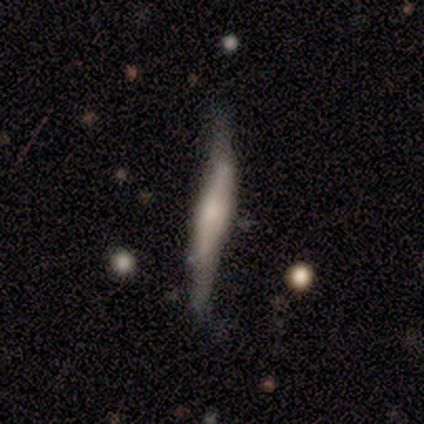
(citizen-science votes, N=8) Volunteers were most divided on "merging" (2-way tie): none: 50%, minor disturbance: 50%, major disturbance: 0%, merger: 0%. More confident: how rounded — cigar-shaped (100%); smooth or featured — smooth (62%).